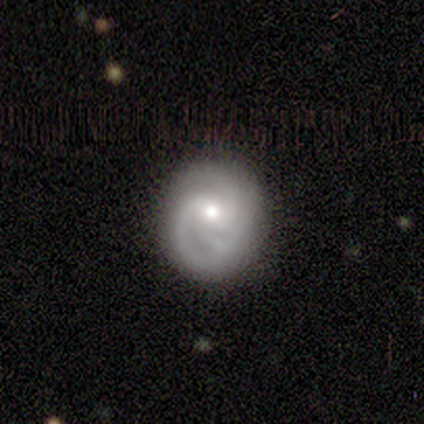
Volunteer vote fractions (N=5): A featured or disk galaxy (60%) with no bar (67%), 2 (67%) medium (67%) spiral arms (100%) and a small central bulge (100%). Merging: none (50%).